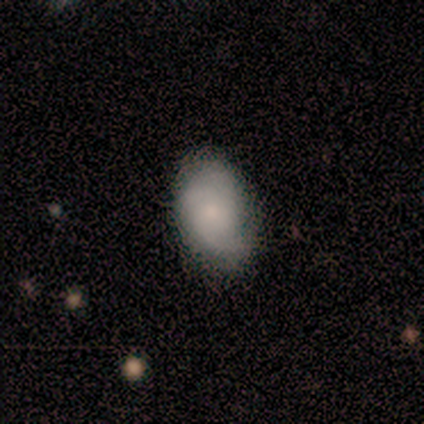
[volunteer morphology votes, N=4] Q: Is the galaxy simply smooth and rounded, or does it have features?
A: smooth — 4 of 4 (100%).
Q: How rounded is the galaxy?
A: in between — 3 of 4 (75%).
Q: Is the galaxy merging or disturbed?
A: none — 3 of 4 (75%).